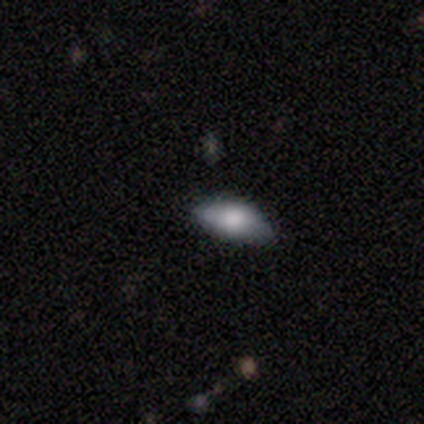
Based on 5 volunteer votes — Overall: smooth (80%). How rounded: in between (100%). Merging: none (75%).